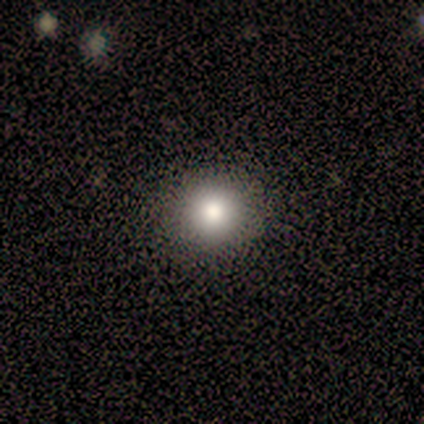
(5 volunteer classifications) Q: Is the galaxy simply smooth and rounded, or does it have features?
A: smooth — 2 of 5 (40%, tied with star or artifact).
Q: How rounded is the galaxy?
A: round — 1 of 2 (50%, tied with in between).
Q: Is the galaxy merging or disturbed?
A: none — 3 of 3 (100%).